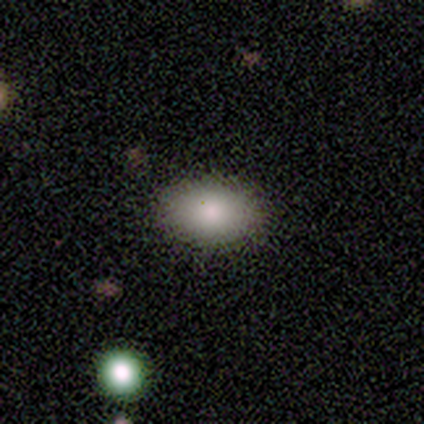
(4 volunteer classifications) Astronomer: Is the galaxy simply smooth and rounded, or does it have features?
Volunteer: smooth — 75%.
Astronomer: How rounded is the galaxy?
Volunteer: in between — 100%.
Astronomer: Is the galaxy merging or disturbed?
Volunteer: none — 100%.